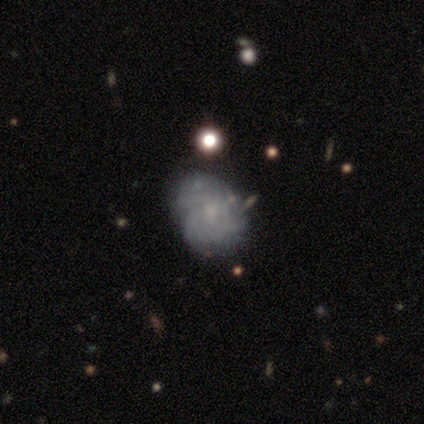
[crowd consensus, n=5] smooth-or-featured: featured or disk: 80% | smooth: 20% | star or artifact: 0%
  disk-edge-on: no: 100% | yes: 0%
    bar: weak: 75% | no: 25% | strong: 0%
    has-spiral-arms: yes: 100% | no: 0%
      spiral-winding: tight: 75% | medium: 25% | loose: 0%
      spiral-arm-count: can't tell: 50% | 3: 25% | more than 4: 25% | 1: 0% | 2: 0% | 4: 0%
    bulge-size: small: 100% | dominant: 0% | large: 0% | moderate: 0% | none: 0%
  merging: none: 80% | merger: 20% | minor disturbance: 0% | major disturbance: 0%